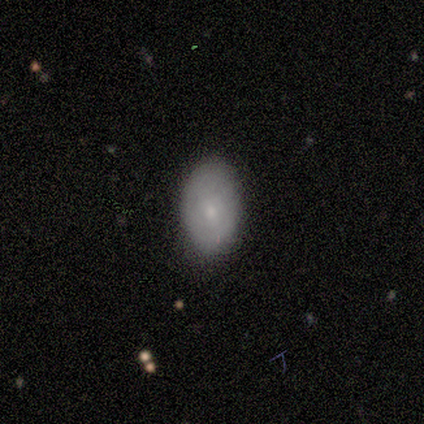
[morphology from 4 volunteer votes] This is likely a smooth galaxy (75%). How rounded: clearly in between (100%). Merging: clearly none (100%).